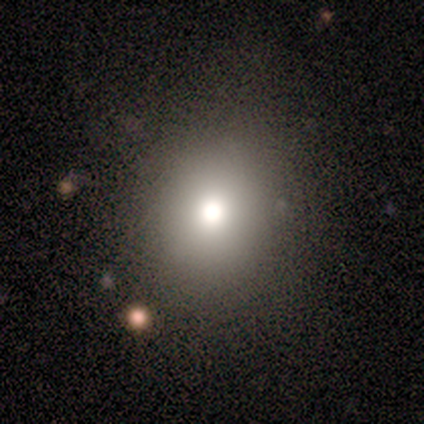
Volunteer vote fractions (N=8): Smooth or featured? 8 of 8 (100%) said smooth. How rounded? 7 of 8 (88%) said round. Merging? 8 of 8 (100%) said none.